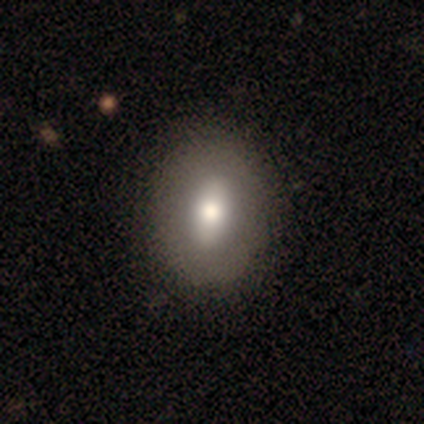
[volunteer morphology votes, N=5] Smooth or featured? featured or disk (60%)
Edge-on disk? no (100%)
Bar? strong (33%, tied with weak and no)
Spiral arms? no (100%)
Bulge size? large (67%)
Merging? none (80%)